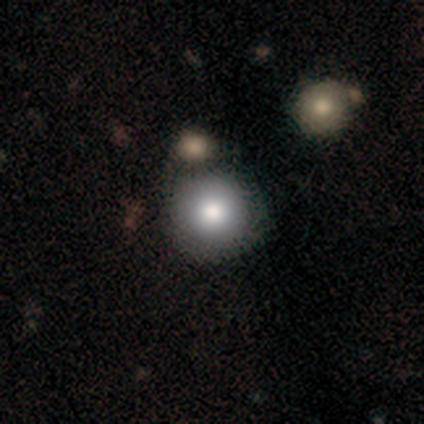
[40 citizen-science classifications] Smooth or featured? 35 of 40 (88%) said smooth. How rounded? 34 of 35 (97%) said round. Merging? 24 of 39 (62%) said none.